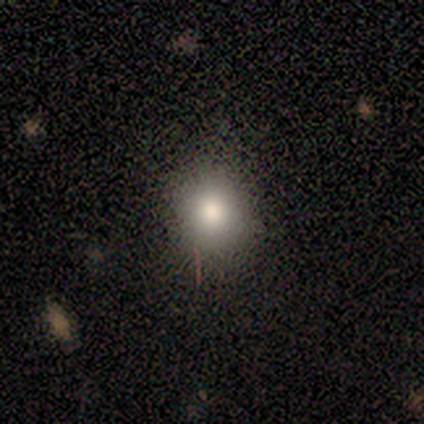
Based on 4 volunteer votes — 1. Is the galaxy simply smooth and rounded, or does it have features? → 100% smooth, 0% featured or disk, 0% star or artifact.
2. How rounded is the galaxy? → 50% round (tied), 50% in between (tied), 0% cigar-shaped.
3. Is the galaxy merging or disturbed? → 100% none, 0% minor disturbance, 0% major disturbance, 0% merger.